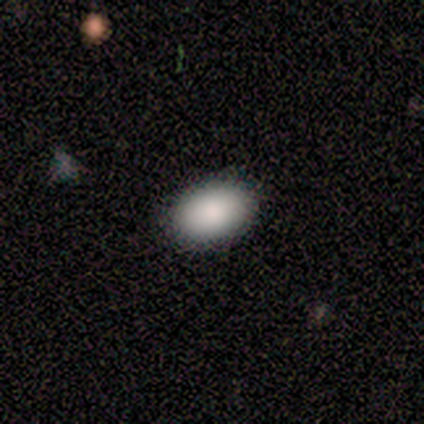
smooth 80%, star or artifact 20%, featured or disk 0%. Down the decision tree: how rounded — in between (100%); merging — none (100%).